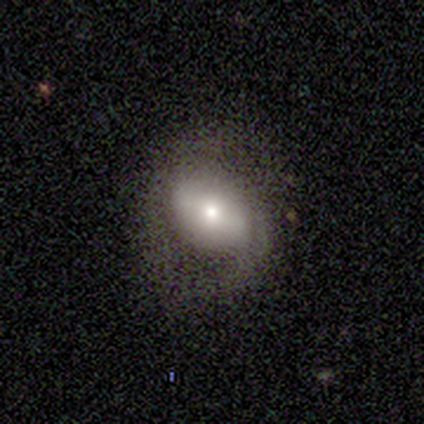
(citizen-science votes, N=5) Smooth or featured: smooth — 60% (featured or disk — 40%)
How rounded: in between — 67% (round — 33%)
Merging: minor disturbance — 80% (none — 20%)